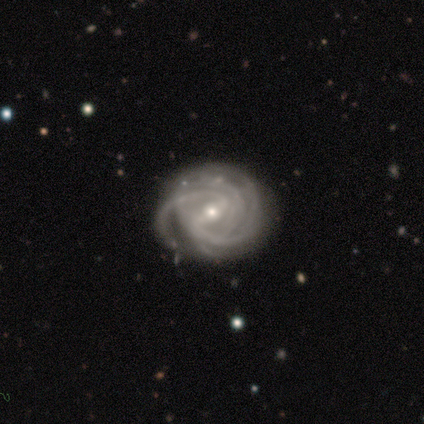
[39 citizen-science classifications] Morphology: type=featured or disk (95%); edge-on=no (95%); bar=strong (43%); spiral arms=yes (97%); winding=tight (68%); arm count=4 (32%); bulge=small (51%); merging=none (55%).